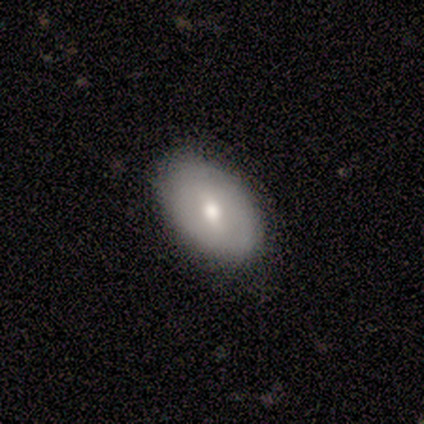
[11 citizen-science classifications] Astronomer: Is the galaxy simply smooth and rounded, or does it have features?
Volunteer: featured or disk — 55% (runner-up: smooth, 36%).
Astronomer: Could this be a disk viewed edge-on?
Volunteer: no — 83%.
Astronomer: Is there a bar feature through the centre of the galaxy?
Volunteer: weak — 60% (runner-up: no, 40%).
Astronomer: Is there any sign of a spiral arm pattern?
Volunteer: no — 100%.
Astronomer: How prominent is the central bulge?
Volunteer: moderate — 100%.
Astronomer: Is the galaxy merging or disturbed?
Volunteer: none — 90%.